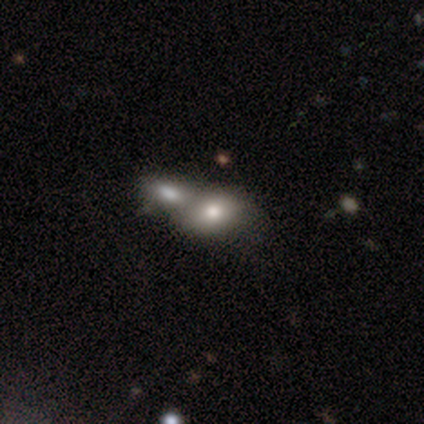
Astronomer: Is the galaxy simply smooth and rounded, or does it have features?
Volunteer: smooth — 74%.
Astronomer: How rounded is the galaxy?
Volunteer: in between — 93%.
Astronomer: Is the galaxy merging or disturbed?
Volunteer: merger — 62%.